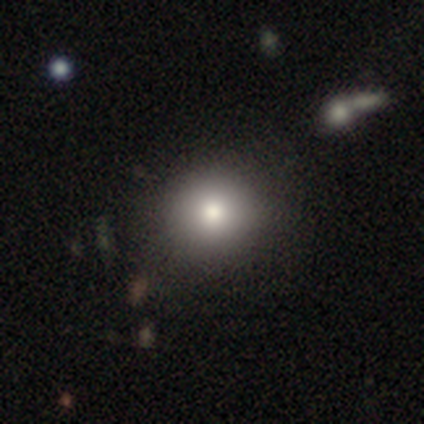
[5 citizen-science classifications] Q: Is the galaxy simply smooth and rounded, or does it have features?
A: smooth — 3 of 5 (60%).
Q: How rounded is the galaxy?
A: in between — 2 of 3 (67%).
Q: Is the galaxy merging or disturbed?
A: none — 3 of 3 (100%).